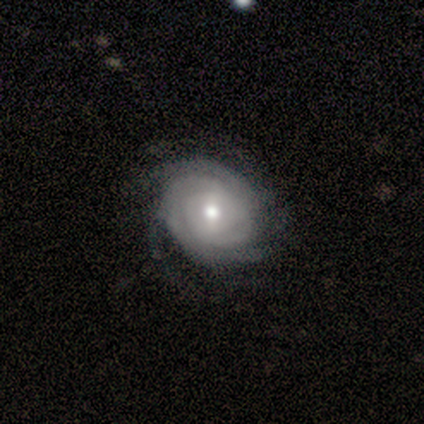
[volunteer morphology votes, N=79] A featured or disk galaxy (89%) with a weak bar (46%), 2 (25%, tied with can't tell) tight (87%) spiral arms (97%) and a moderate central bulge (75%). Merging: none (44%).